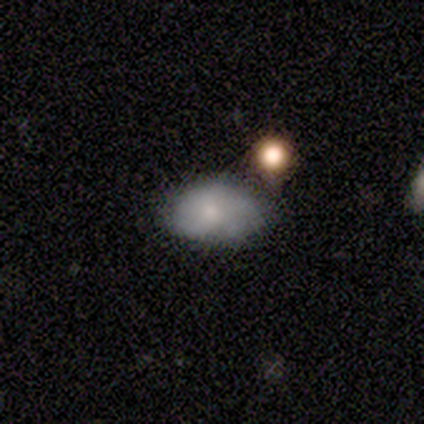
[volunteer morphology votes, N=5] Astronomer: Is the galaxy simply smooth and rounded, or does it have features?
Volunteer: smooth — 60%.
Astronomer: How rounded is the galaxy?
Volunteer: in between — 100%.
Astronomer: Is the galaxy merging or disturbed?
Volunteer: minor disturbance — 75%.